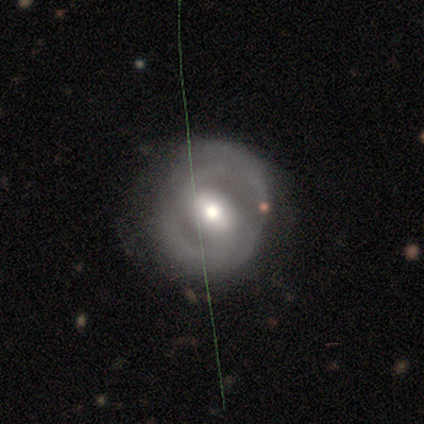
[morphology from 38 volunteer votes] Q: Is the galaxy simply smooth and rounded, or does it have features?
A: featured or disk — 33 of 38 (87%).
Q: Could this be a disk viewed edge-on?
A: no — 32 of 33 (97%).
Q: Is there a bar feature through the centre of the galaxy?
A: weak — 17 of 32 (53%).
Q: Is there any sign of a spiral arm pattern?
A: yes — 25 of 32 (78%).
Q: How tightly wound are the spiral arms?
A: medium — 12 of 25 (48%).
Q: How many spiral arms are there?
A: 2 — 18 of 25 (72%).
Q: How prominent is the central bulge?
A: moderate — 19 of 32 (59%).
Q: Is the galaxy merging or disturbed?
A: none — 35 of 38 (92%).